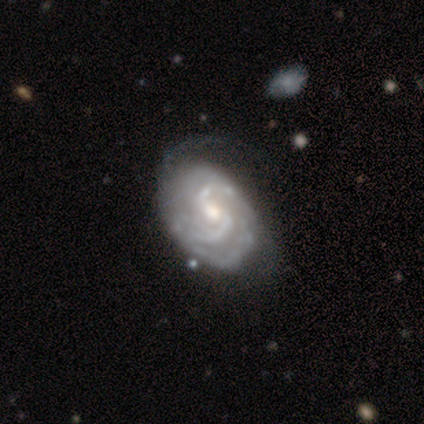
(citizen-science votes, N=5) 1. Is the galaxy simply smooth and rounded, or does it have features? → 60% featured or disk, 40% star or artifact, 0% smooth.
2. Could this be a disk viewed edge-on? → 100% no, 0% yes.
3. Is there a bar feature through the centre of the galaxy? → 67% weak, 33% no, 0% strong.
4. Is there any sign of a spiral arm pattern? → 100% yes, 0% no.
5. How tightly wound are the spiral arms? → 33% tight (tied), 33% medium (tied), 33% loose (tied).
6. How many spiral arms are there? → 67% 2, 33% 4, 0% 1, 0% 3, 0% more than 4, 0% can't tell.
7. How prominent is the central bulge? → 100% moderate, 0% dominant, 0% large, 0% small, 0% none.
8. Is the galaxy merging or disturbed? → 100% none, 0% minor disturbance, 0% major disturbance, 0% merger.